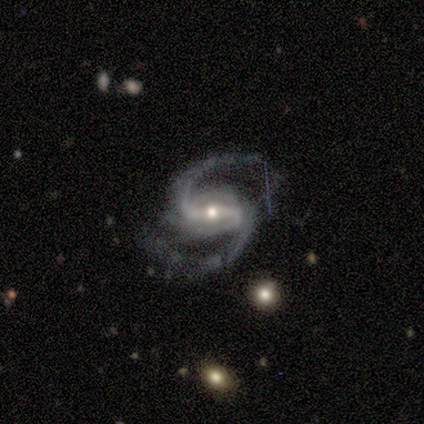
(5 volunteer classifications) Smooth or featured?
  - featured or disk: 100% *
  - smooth: 0%
  - star or artifact: 0%
Edge-on disk?
  - no: 100% *
  - yes: 0%
Bar?
  - strong: 80% *
  - weak: 20%
  - no: 0%
Spiral arms?
  - yes: 100% *
  - no: 0%
Spiral winding?
  - medium: 80% *
  - loose: 20%
  - tight: 0%
Spiral arm count?
  - 2: 100% *
  - 1: 0%
  - 3: 0%
  - 4: 0%
  - more than 4: 0%
  - can't tell: 0%
Bulge size?
  - moderate: 60% *
  - small: 40%
  - dominant: 0%
  - large: 0%
  - none: 0%
Merging?
  - none: 60% *
  - minor disturbance: 20%
  - major disturbance: 20%
  - merger: 0%